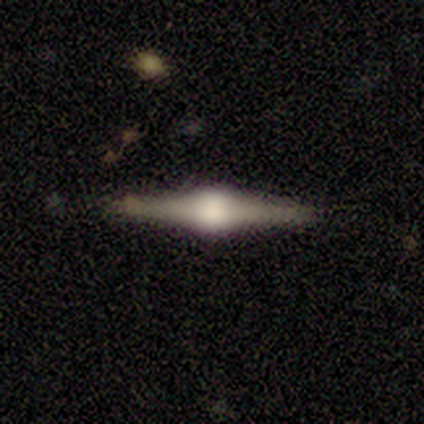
smooth_or_featured: featured or disk (p=0.80) [alt: smooth p=0.20]
disk_edge_on: yes (p=1.00)
edge_on_bulge: rounded (p=1.00)
merging: none (p=1.00)